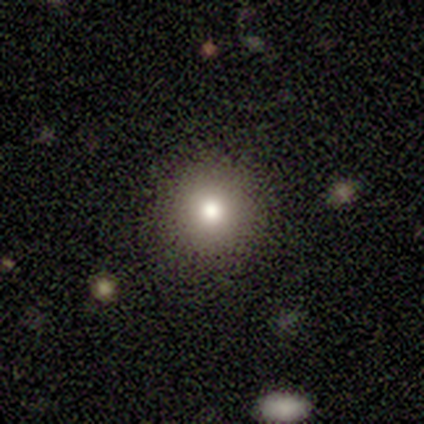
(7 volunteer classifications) Morphology: type=smooth (71%); roundness=round (100%); merging=none (100%).